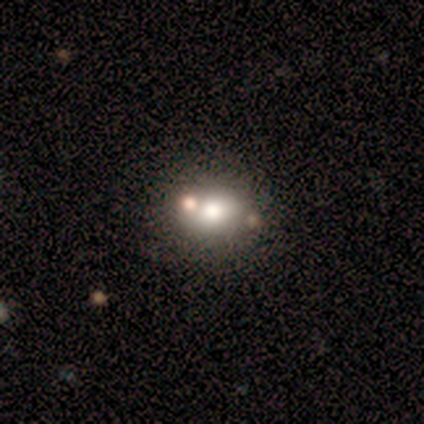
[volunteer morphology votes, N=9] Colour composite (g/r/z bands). It shows a smooth galaxy with no disk features (67%) that is round (67%). Merging: none (56%).